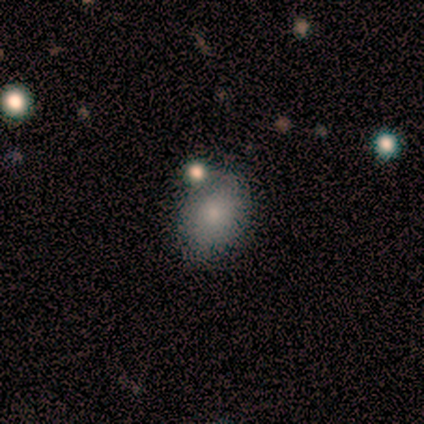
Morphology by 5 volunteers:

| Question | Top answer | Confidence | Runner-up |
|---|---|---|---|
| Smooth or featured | smooth | 100% | — |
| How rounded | round | 60% | in between (40%) |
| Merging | none | 100% | — |